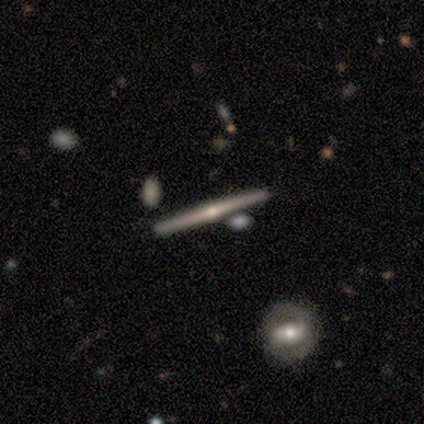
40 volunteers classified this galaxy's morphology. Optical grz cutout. It shows a featured or disk galaxy (88%) viewed edge-on (100%) with a rounded central bulge (89%). Merging: none (97%).